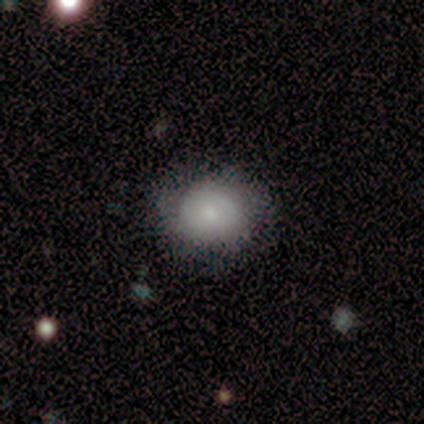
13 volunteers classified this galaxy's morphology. smooth_or_featured: smooth (p=0.69) [alt: featured or disk p=0.23]
how_rounded: round (p=0.56) [alt: in between p=0.44]
merging: none (p=0.58) [alt: minor disturbance p=0.33]